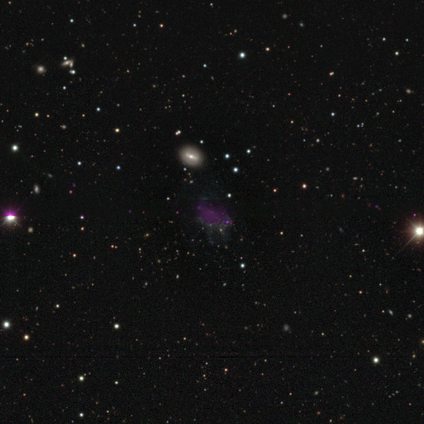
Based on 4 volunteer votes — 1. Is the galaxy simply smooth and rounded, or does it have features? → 75% star or artifact, 25% smooth, 0% featured or disk.